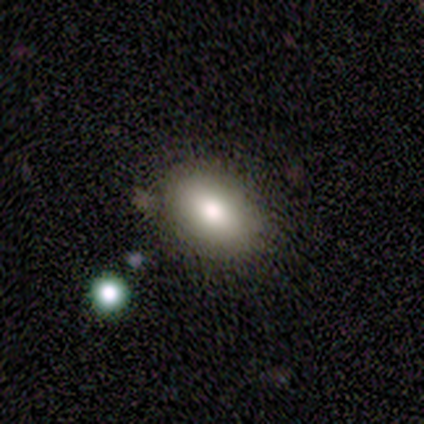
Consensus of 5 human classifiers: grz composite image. It shows a smooth galaxy with no disk features (80%) that is in between round and cigar-shaped (75%). Merging: none (100%).